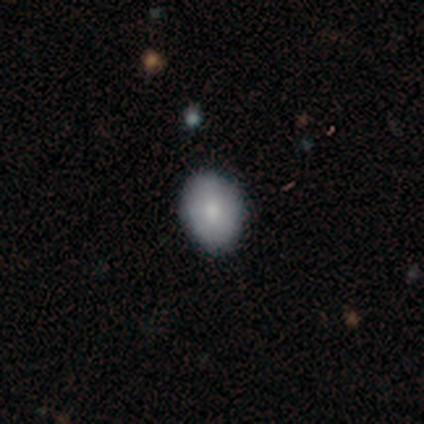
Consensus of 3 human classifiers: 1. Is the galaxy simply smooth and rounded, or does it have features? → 67% smooth, 33% featured or disk, 0% star or artifact.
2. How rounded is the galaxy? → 100% in between, 0% round, 0% cigar-shaped.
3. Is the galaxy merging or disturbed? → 67% none, 33% minor disturbance, 0% major disturbance, 0% merger.